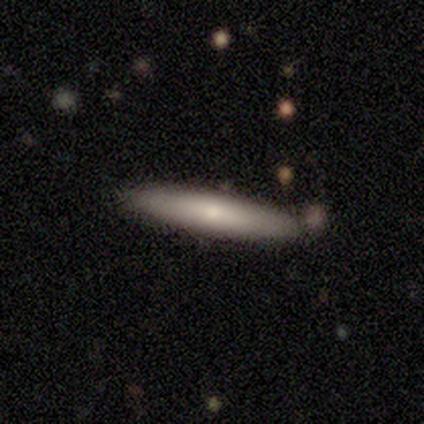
Smooth or featured? smooth (58%)
How rounded? cigar-shaped (100%)
Merging? none (73%)